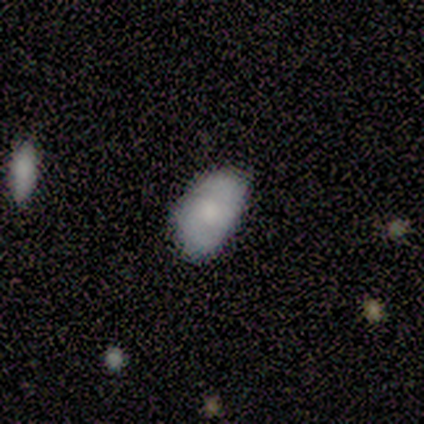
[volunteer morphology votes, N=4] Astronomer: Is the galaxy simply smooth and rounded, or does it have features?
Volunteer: featured or disk — 75%.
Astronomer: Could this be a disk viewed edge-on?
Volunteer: no — 100%.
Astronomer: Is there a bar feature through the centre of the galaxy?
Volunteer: no — 67%.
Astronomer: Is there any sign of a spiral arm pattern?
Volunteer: no — 67%.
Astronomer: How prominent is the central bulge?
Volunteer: moderate — 33%, tied with small and none at 33%.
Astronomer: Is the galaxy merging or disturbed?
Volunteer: minor disturbance — 100%.